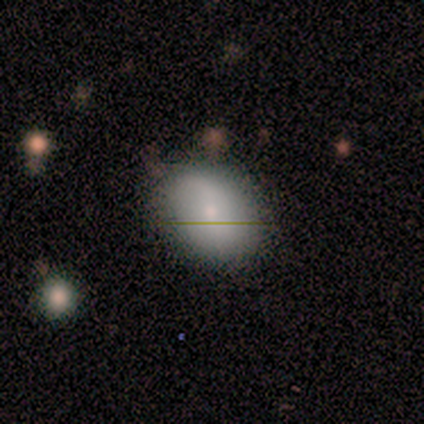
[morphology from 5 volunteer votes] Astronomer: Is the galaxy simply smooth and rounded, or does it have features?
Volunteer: smooth — 80%.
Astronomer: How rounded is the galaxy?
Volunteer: in between — 75%.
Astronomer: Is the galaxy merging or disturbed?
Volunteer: none — 80%.